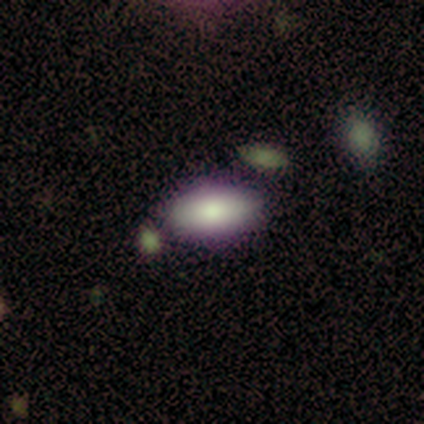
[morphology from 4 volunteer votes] smooth_or_featured: smooth (p=0.75) [alt: featured or disk p=0.25]
how_rounded: in between (p=1.00)
merging: none (p=0.75) [alt: merger p=0.25]